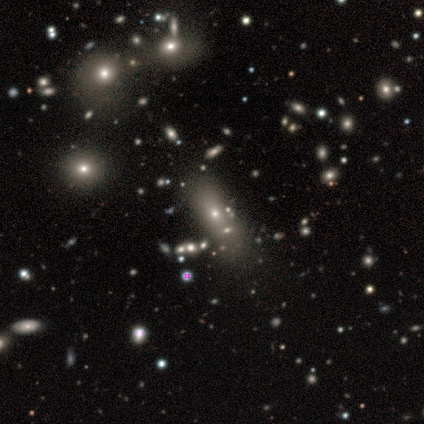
Smooth or featured? smooth (100%)
How rounded? in between (50%, tied with cigar-shaped)
Merging? none (100%)